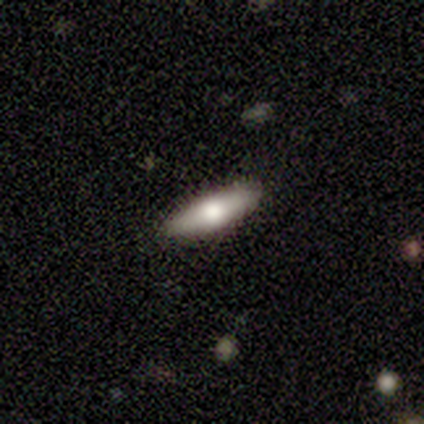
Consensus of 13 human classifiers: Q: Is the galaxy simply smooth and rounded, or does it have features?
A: smooth — 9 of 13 (69%).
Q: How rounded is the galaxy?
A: cigar-shaped — 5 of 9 (56%).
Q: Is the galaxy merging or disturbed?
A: none — 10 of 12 (83%).